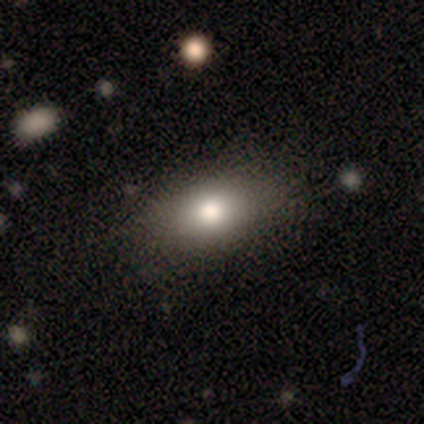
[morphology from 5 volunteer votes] Smooth or featured?
  - smooth: 60% *
  - featured or disk: 40%
  - star or artifact: 0%
How rounded?
  - in between: 67% *
  - cigar-shaped: 33%
  - round: 0%
Merging?
  - none: 100% *
  - minor disturbance: 0%
  - major disturbance: 0%
  - merger: 0%